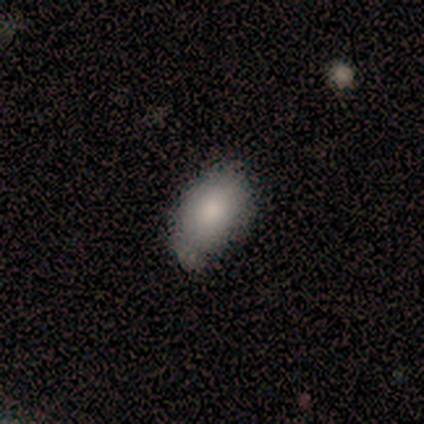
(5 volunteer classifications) This is clearly a smooth galaxy (80%). How rounded: clearly in between (100%). Merging: likely none (60%).